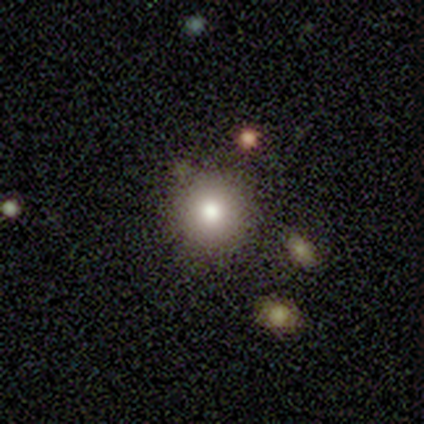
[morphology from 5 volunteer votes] Smooth or featured?
  - smooth: 80% *
  - featured or disk: 20%
  - star or artifact: 0%
How rounded?
  - round: 75% *
  - in between: 25%
  - cigar-shaped: 0%
Merging?
  - none: 60% *
  - minor disturbance: 20%
  - merger: 20%
  - major disturbance: 0%